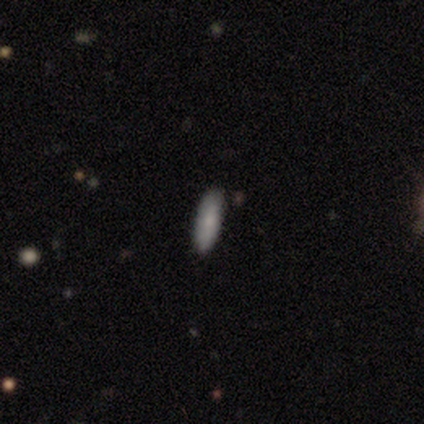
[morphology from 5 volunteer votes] Smooth or featured?
  - smooth: 100% *
  - featured or disk: 0%
  - star or artifact: 0%
How rounded?
  - cigar-shaped: 60% *
  - in between: 40%
  - round: 0%
Merging?
  - none: 100% *
  - minor disturbance: 0%
  - major disturbance: 0%
  - merger: 0%